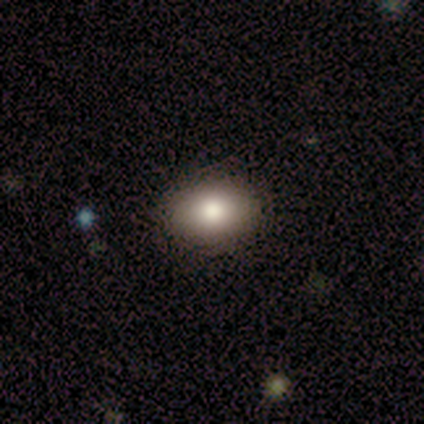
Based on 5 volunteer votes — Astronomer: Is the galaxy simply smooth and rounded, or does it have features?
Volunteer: smooth — 100%.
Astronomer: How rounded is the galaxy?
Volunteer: in between — 100%.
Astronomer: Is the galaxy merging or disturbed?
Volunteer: none — 100%.